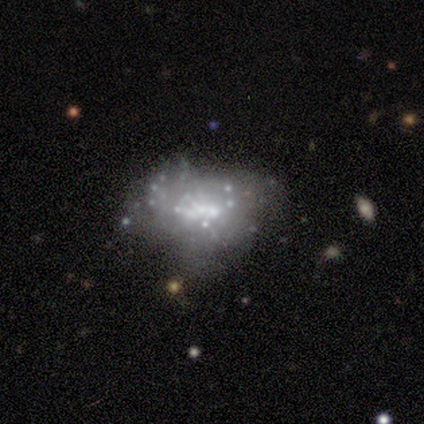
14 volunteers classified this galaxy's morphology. Smooth or featured? featured or disk (71%)
Edge-on disk? no (100%)
Bar? no (70%)
Spiral arms? no (80%)
Bulge size? moderate (40%, tied with small)
Merging? none (55%)